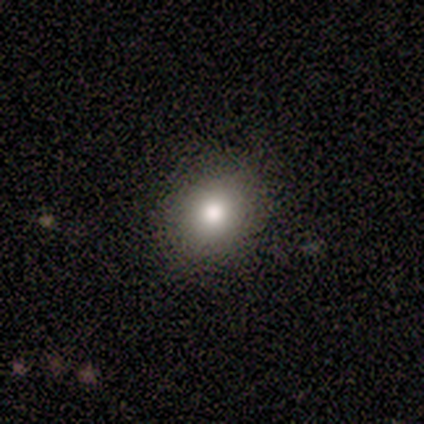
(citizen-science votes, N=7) This is clearly a smooth galaxy (100%). How rounded: possibly round (57%). Merging: clearly none (100%).